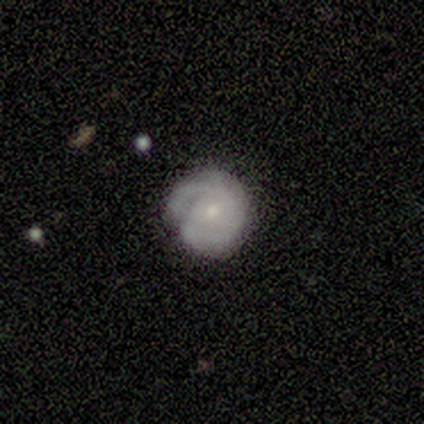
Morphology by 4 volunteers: Smooth or featured? featured or disk (75%)
Edge-on disk? no (100%)
Bar? weak (67%)
Spiral arms? yes (100%)
Spiral winding? medium (67%)
Spiral arm count? 2 (100%)
Bulge size? small (67%)
Merging? none (75%)